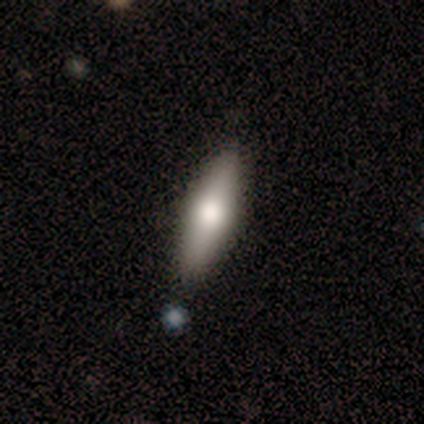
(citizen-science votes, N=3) Volunteers were most divided on "smooth or featured": featured or disk: 67%, smooth: 33%, star or artifact: 0%. More confident: edge-on disk — yes (100%); edge-on bulge — rounded (100%); merging — none (100%).